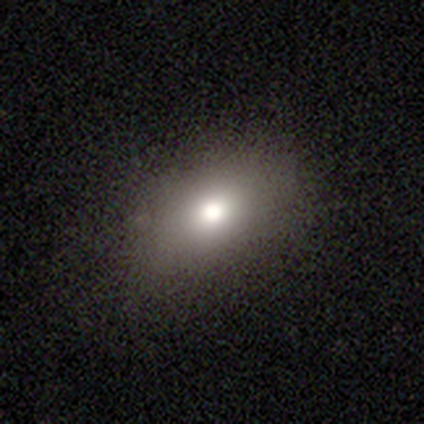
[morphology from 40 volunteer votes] This is likely a smooth galaxy (75%). How rounded: likely in between (77%). Merging: clearly none (85%).